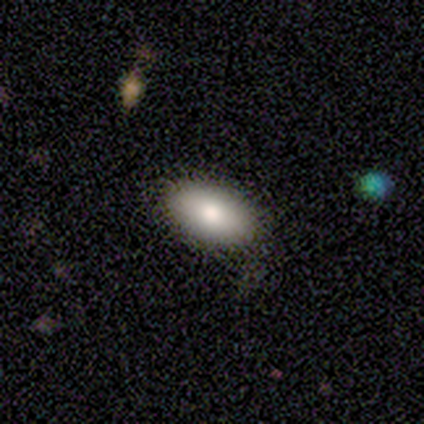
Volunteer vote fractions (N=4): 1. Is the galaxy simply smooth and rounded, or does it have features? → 75% smooth, 25% star or artifact, 0% featured or disk.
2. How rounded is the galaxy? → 100% in between, 0% round, 0% cigar-shaped.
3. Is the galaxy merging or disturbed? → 100% none, 0% minor disturbance, 0% major disturbance, 0% merger.